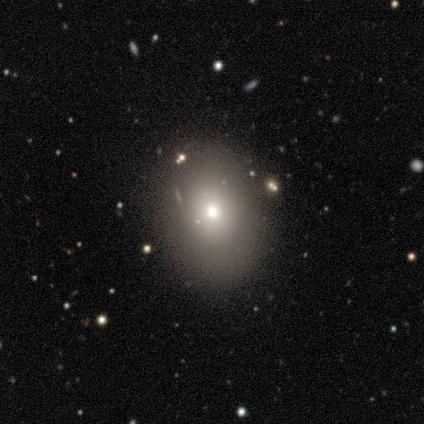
Q: Smooth or featured?
A: smooth (74%); runner-up: featured or disk (13%)
Q: How rounded?
A: in between (54%); runner-up: round (46%)
Q: Merging?
A: none (64%); runner-up: minor disturbance (24%)